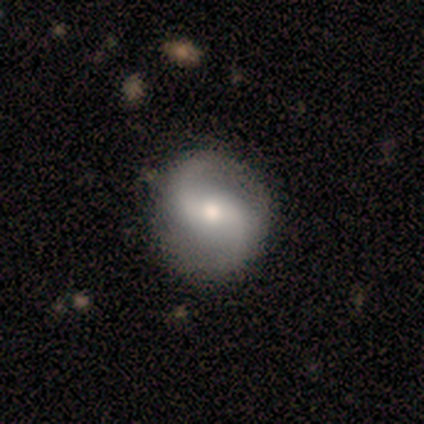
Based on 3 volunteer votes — Q: Smooth or featured?
A: featured or disk (67%); runner-up: smooth (33%)
Q: Edge-on disk?
A: no (100%)
Q: Bar?
A: weak (50%); tied with: no (50%)
Q: Spiral arms?
A: yes (100%)
Q: Spiral winding?
A: tight (50%); tied with: loose (50%)
Q: Spiral arm count?
A: 2 (100%)
Q: Bulge size?
A: moderate (100%)
Q: Merging?
A: none (67%); runner-up: minor disturbance (33%)